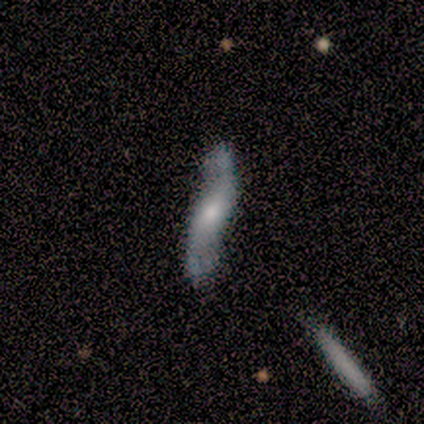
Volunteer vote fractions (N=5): Q: Smooth or featured?
A: smooth (80%); runner-up: featured or disk (20%)
Q: How rounded?
A: cigar-shaped (100%)
Q: Merging?
A: none (40%); tied with: minor disturbance (40%)